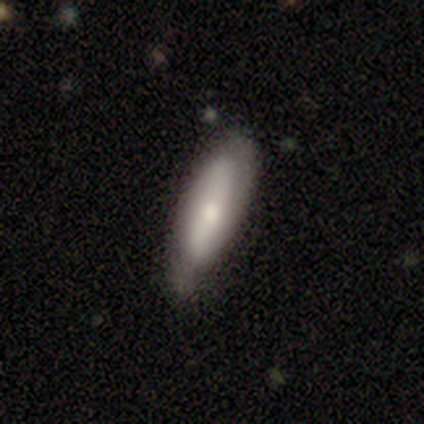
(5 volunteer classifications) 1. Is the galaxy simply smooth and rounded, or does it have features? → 40% smooth (tied), 40% featured or disk (tied), 20% star or artifact.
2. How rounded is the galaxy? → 50% in between (tied), 50% cigar-shaped (tied), 0% round.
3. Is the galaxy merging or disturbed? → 75% none, 25% minor disturbance, 0% major disturbance, 0% merger.